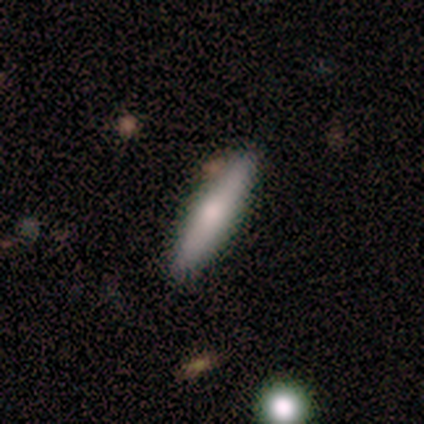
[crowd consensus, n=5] Morphology: type=featured or disk (60%); edge-on=yes (100%); edge-on bulge=rounded (67%); merging=none (80%).